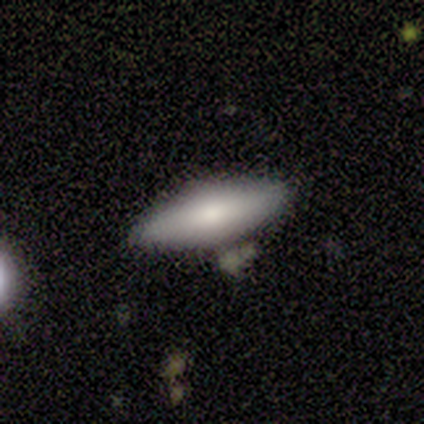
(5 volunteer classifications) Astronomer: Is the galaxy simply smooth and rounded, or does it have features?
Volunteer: smooth — 80%.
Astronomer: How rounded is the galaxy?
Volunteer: in between — 100%.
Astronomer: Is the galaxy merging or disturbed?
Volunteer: none — 40% (runner-up: minor disturbance, 20%).